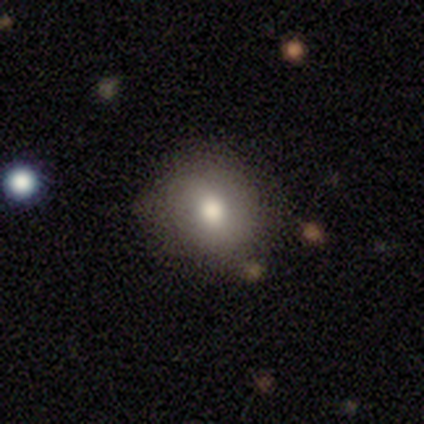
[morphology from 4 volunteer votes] A smooth galaxy with no disk features (100%) that is round (50%, tied with in between). Merging: none (100%).